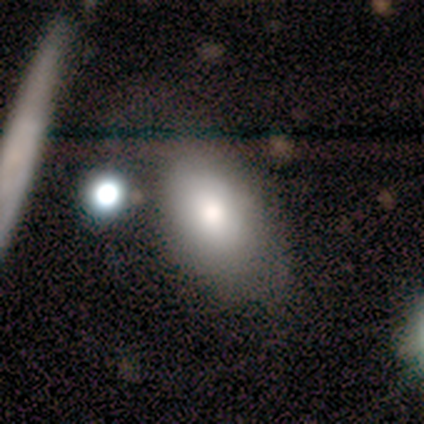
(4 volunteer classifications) Smooth or featured? smooth (75%)
How rounded? in between (100%)
Merging? none (75%)